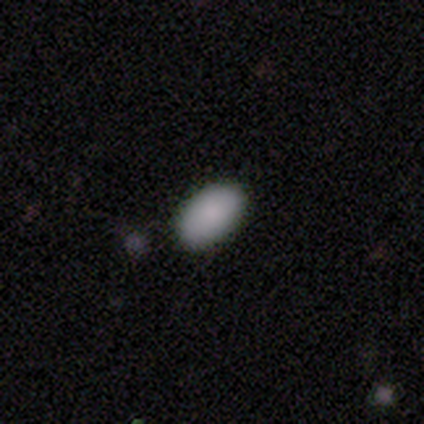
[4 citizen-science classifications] Consensus on every question: smooth or featured — smooth (100%); how rounded — in between (100%); merging — none (100%).